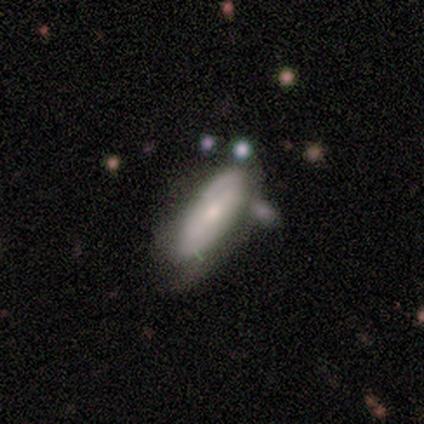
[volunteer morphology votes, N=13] A smooth galaxy with no disk features (69%) that is in between round and cigar-shaped (44%, tied with cigar-shaped). Merging: minor disturbance (50%).